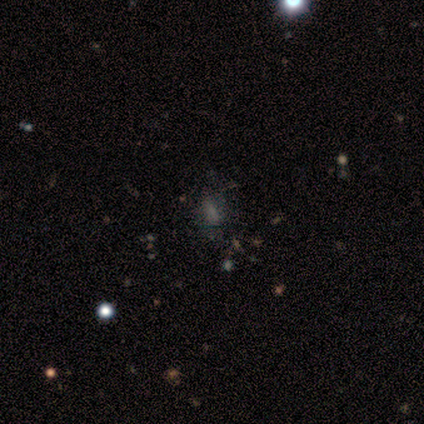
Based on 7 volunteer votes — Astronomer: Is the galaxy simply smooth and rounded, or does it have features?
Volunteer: smooth — 71%.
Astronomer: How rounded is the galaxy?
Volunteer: in between — 80%.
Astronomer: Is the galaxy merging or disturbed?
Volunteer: none — 67%.